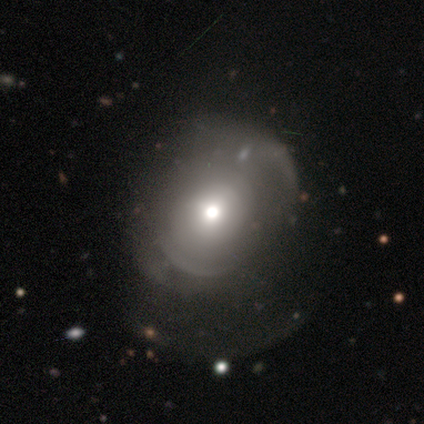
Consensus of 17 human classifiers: smooth 59%, featured or disk 24%, star or artifact 18%. Down the decision tree: how rounded — round (60%); merging — minor disturbance (14%, tied with major disturbance and merger).